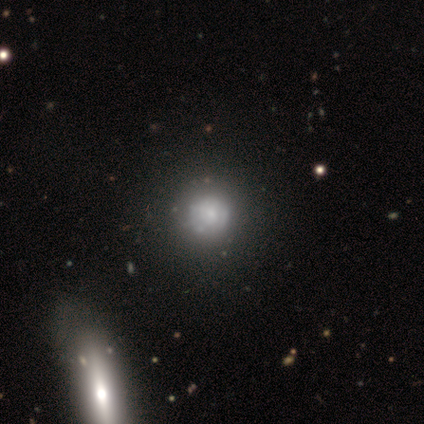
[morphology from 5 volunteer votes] Smooth or featured?
  - featured or disk: 60% *
  - smooth: 20%
  - star or artifact: 20%
Edge-on disk?
  - no: 100% *
  - yes: 0%
Bar?
  - no: 100% *
  - strong: 0%
  - weak: 0%
Spiral arms?
  - no: 100% *
  - yes: 0%
Bulge size?
  - large: 67% *
  - moderate: 33%
  - dominant: 0%
  - small: 0%
  - none: 0%
Merging?
  - none: 50% * (tied)
  - minor disturbance: 50% * (tied)
  - major disturbance: 0%
  - merger: 0%